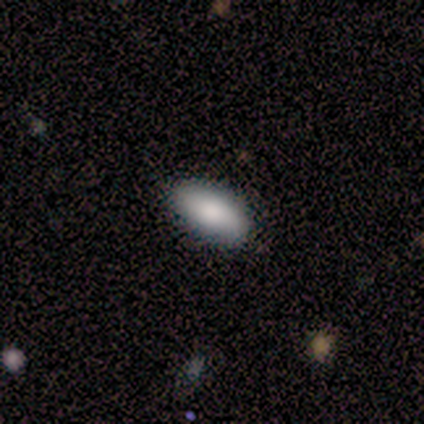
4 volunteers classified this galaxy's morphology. A smooth galaxy with no disk features (100%) that is cigar-shaped (50%). Merging: none (100%).